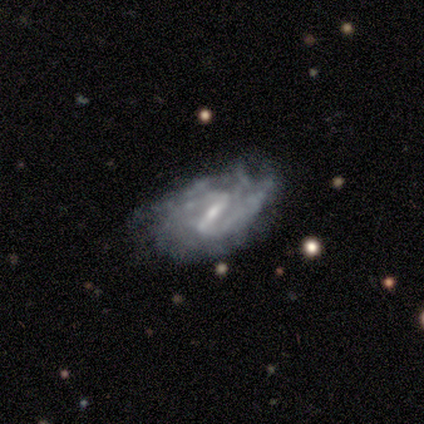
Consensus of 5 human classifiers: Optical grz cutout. It shows a featured or disk galaxy (80%) with a strong bar (67%), 2 (67%) tight (67%) spiral arms (100%) and a moderate central bulge (67%). Merging: none (40%, tied with minor disturbance).